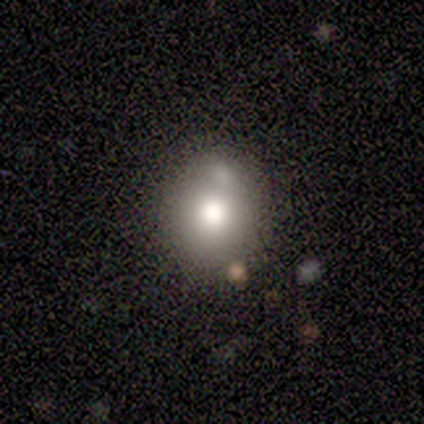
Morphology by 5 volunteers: Smooth or featured: smooth — 80% (featured or disk — 20%)
How rounded: round — 50% (tied with in between — 50%)
Merging: minor disturbance — 40% (none — 20%)